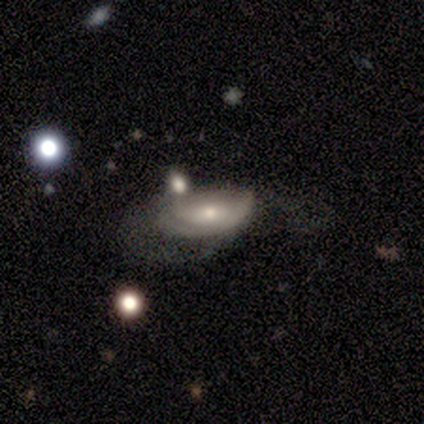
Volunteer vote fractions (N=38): smooth_or_featured: featured or disk (p=0.47) [alt: smooth p=0.45]
disk_edge_on: no (p=0.89) [alt: yes p=0.11]
bar: no (p=0.69) [alt: weak p=0.25]
has_spiral_arms: no (p=0.62) [alt: yes p=0.38]
bulge_size: small (p=0.69) [alt: moderate p=0.31]
merging: major disturbance (p=0.51) [alt: minor disturbance p=0.23]